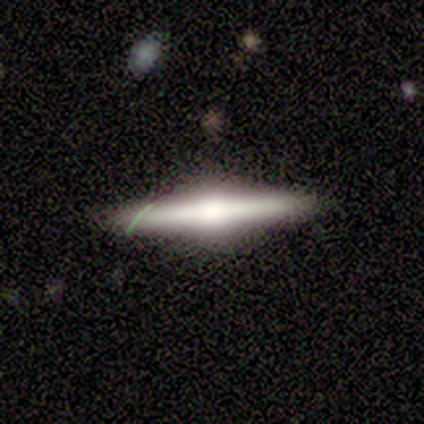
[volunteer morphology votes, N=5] A featured or disk galaxy (80%) viewed edge-on (100%) with a rounded central bulge (100%).

Vote fractions:
- Smooth or featured? featured or disk: 80% / smooth: 20% / star or artifact: 0%
- Edge-on disk? yes: 100% / no: 0%
- Edge-on bulge? rounded: 100% / boxy: 0% / none: 0%
- Merging? none: 80% / minor disturbance: 20% / major disturbance: 0% / merger: 0%